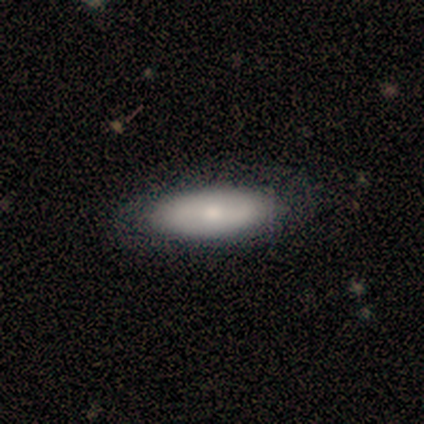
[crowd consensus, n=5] This appears to be a smooth galaxy with no disk features (80%) that is in between round and cigar-shaped (75%). Merging: none (100%).